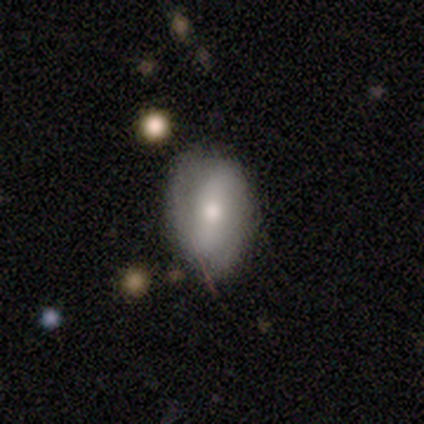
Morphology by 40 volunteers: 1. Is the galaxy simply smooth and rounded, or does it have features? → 50% smooth, 42% featured or disk, 8% star or artifact.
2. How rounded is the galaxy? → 85% in between, 15% round, 0% cigar-shaped.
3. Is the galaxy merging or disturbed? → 62% none, 27% minor disturbance, 11% major disturbance, 0% merger.